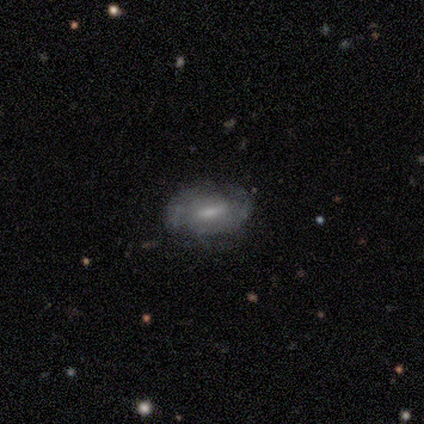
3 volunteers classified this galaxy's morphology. Smooth or featured: featured or disk — 67% (smooth — 33%)
Edge-on disk: yes — 50% (tied with no — 50%)
Edge-on bulge: none — 100%
Merging: none — 100%